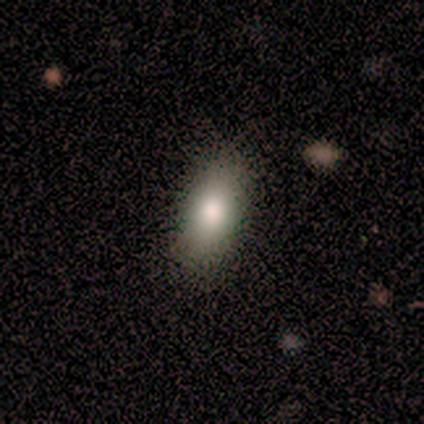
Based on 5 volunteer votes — Smooth or featured: smooth — 100%
How rounded: in between — 100%
Merging: none — 60% (minor disturbance — 40%)